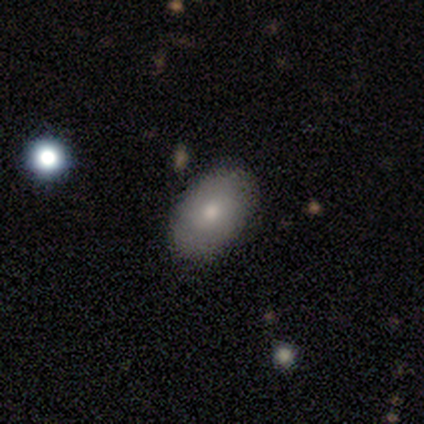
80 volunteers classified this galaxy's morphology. smooth-or-featured: smooth: 79% | featured or disk: 19% | star or artifact: 2%
  how-rounded: in between: 92% | round: 8% | cigar-shaped: 0%
  merging: none: 44% | minor disturbance: 6% | merger: 3% | major disturbance: 0%